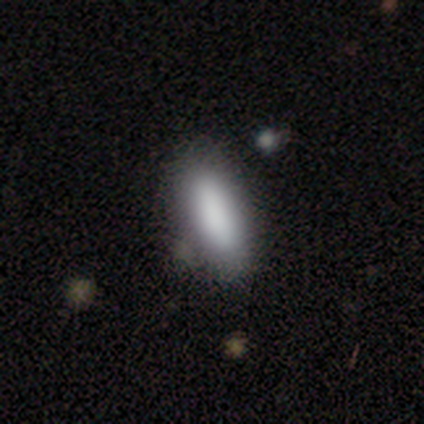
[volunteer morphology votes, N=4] Overall: smooth (75%). How rounded: cigar-shaped (67%; in between 33%). Merging: none (100%).